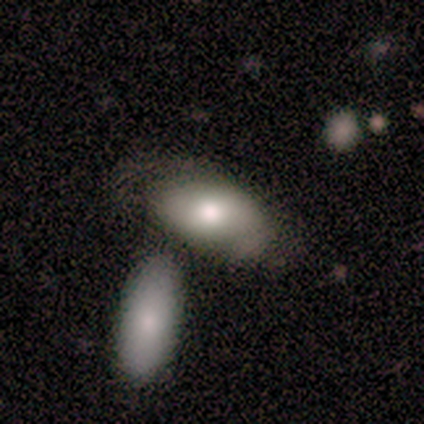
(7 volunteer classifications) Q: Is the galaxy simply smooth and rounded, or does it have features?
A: smooth — 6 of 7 (86%).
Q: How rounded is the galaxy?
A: in between — 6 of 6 (100%).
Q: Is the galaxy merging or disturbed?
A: none — 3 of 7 (43%).